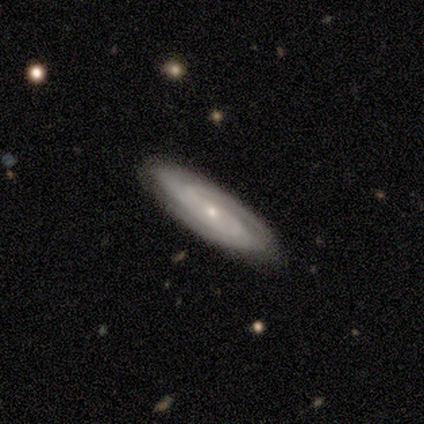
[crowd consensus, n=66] Morphology: type=featured or disk (80%); edge-on=no (87%); bar=no (70%); spiral arms=yes (96%); winding=tight (50%); arm count=2 (57%); bulge=small (70%); merging=none (85%).